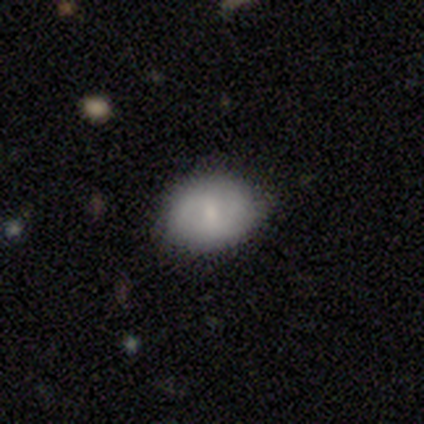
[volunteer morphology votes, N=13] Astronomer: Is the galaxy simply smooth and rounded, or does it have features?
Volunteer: smooth — 62% (runner-up: featured or disk, 38%).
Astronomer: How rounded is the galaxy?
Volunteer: round — 62%.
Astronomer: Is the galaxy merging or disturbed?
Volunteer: none — 92%.